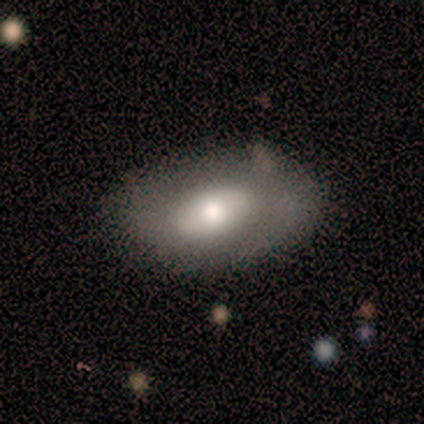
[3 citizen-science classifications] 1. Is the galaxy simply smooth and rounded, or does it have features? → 100% featured or disk, 0% smooth, 0% star or artifact.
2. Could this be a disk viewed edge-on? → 67% no, 33% yes.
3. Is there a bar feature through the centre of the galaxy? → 100% no, 0% strong, 0% weak.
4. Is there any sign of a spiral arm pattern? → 100% no, 0% yes.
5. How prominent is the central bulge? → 50% large (tied), 50% moderate (tied), 0% dominant, 0% small, 0% none.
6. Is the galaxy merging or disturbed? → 67% none, 33% major disturbance, 0% minor disturbance, 0% merger.